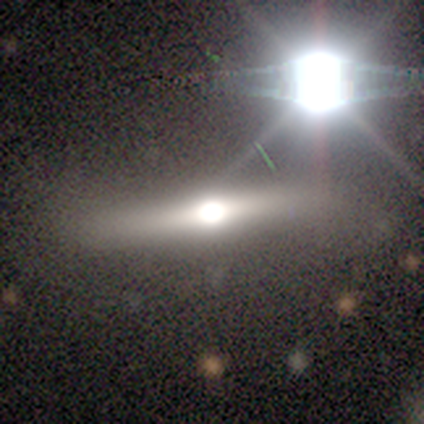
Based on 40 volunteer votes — This appears to be a featured or disk galaxy (62%) viewed edge-on (84%) with a rounded central bulge (100%). Merging: none (59%).